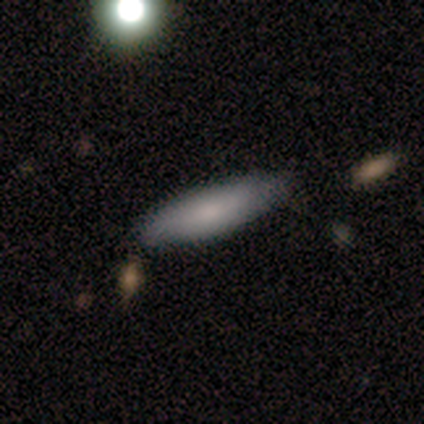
smooth_or_featured: smooth (p=0.60) [alt: star or artifact p=0.40]
how_rounded: cigar-shaped (p=0.67) [alt: in between p=0.33]
merging: none (p=0.67) [alt: minor disturbance p=0.33]